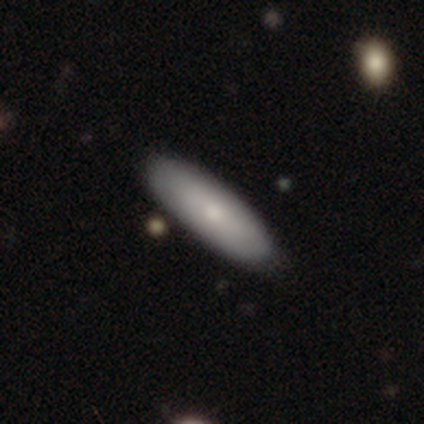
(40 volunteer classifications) Q: Smooth or featured?
A: smooth (70%); runner-up: featured or disk (30%)
Q: How rounded?
A: in between (64%); runner-up: cigar-shaped (36%)
Q: Merging?
A: none (50%); runner-up: minor disturbance (5%)